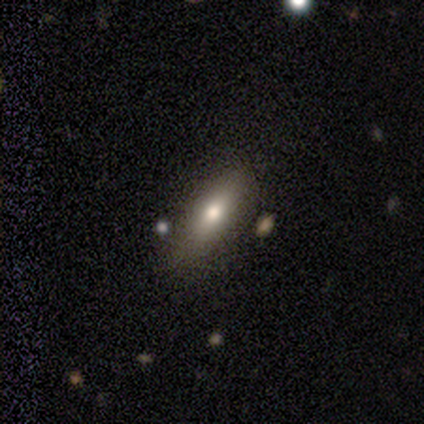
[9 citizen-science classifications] Volunteers were most divided on "how rounded": in between: 57%, cigar-shaped: 43%, round: 0%. More confident: merging — none (89%); smooth or featured — smooth (78%).